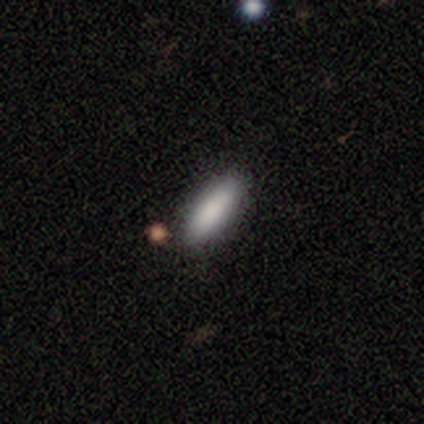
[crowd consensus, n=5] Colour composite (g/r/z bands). It shows a smooth galaxy with no disk features (100%) that is in between round and cigar-shaped (60%). Merging: none (80%).